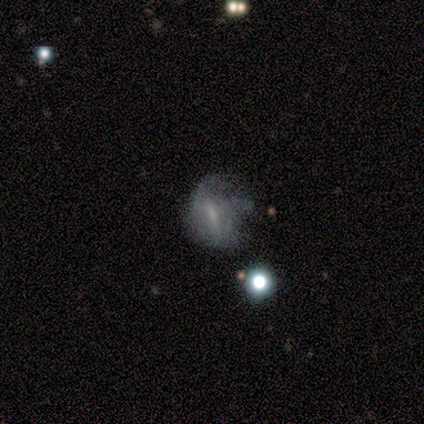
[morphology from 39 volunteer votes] A featured or disk galaxy (62%) with a weak bar (44%), no spiral arms (67%) and no central bulge (50%). Merging: major disturbance (31%).